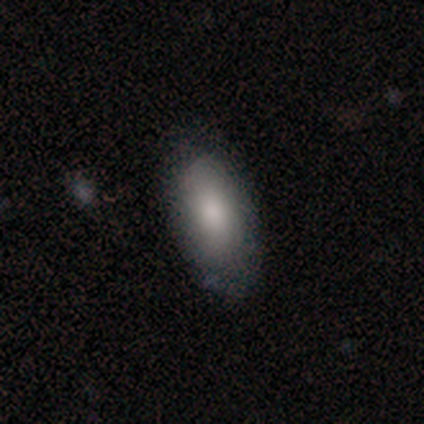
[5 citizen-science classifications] A smooth galaxy with no disk features (100%) that is in between round and cigar-shaped (100%).

Vote fractions:
- Smooth or featured? smooth: 100% / featured or disk: 0% / star or artifact: 0%
- How rounded? in between: 100% / round: 0% / cigar-shaped: 0%
- Merging? none: 100% / minor disturbance: 0% / major disturbance: 0% / merger: 0%